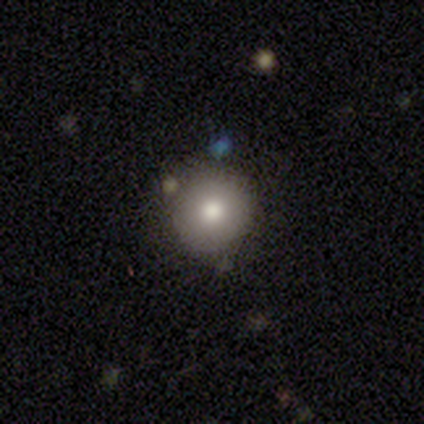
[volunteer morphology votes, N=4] This is possibly a smooth galaxy (50%, tied with featured or disk). How rounded: clearly round (100%). Merging: likely none (75%).